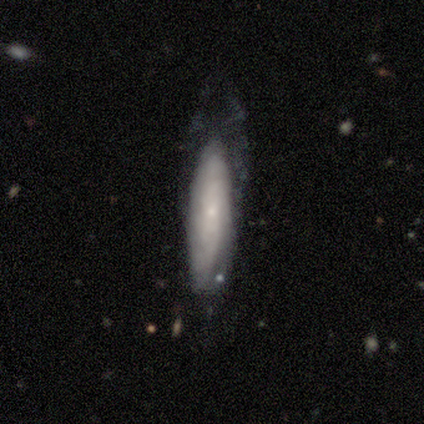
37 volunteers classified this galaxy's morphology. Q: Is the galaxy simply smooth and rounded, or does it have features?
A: featured or disk — 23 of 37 (62%).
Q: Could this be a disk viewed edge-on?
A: no — 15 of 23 (65%).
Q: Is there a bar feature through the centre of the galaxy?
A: no — 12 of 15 (80%).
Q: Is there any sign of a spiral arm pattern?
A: yes — 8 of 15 (53%).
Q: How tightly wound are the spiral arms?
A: tight — 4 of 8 (50%).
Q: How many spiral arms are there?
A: can't tell — 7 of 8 (88%).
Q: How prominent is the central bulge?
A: small — 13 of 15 (87%).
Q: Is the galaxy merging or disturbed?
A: none — 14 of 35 (40%).